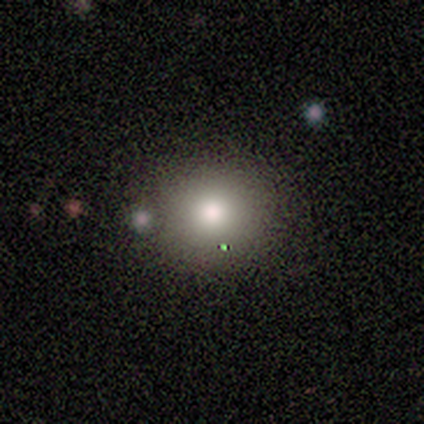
This appears to be a smooth galaxy with no disk features (80%) that is round (75%). Merging: none (100%).